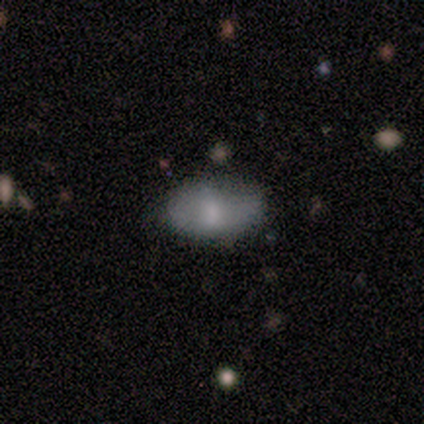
smooth-or-featured: smooth: 58% | featured or disk: 25% | star or artifact: 17%
  how-rounded: in between: 100% | round: 0% | cigar-shaped: 0%
  merging: none: 60% | minor disturbance: 30% | merger: 10% | major disturbance: 0%